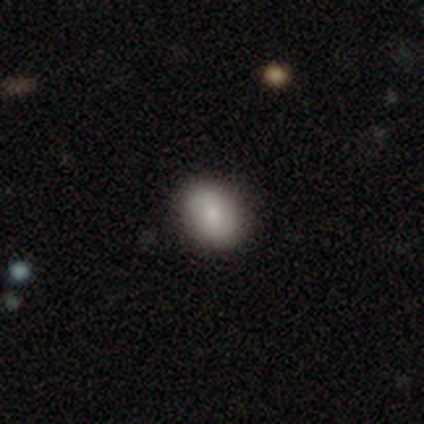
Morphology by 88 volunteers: Smooth or featured? smooth (70%)
How rounded? in between (60%)
Merging? none (89%)